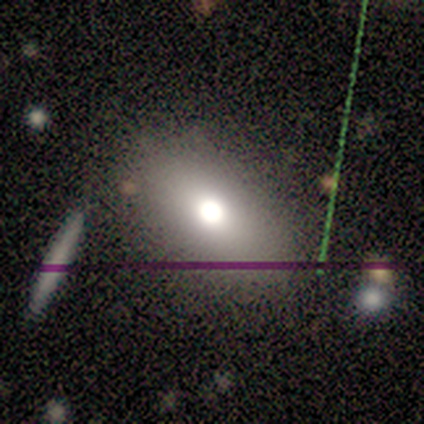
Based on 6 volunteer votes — smooth 50% (tied), featured or disk 50% (tied), star or artifact 0%. Down the decision tree: how rounded — in between (67%); merging — none (83%).